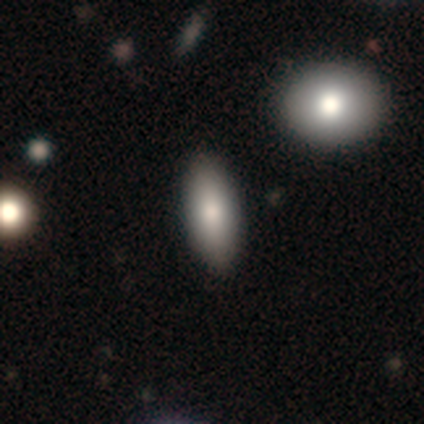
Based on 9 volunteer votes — Smooth or featured? 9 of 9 (100%) said smooth. How rounded? 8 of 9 (89%) said in between. Merging? 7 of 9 (78%) said none.